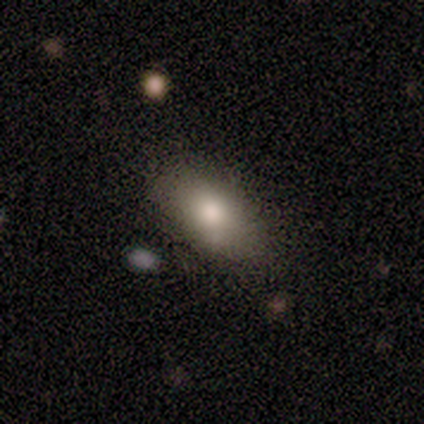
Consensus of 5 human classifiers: Smooth or featured? smooth (80%)
How rounded? in between (100%)
Merging? none (100%)